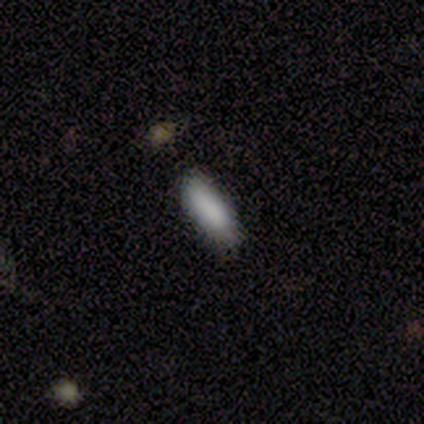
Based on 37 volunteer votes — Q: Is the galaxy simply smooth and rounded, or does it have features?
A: smooth — 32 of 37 (86%).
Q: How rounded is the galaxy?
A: in between — 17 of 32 (53%).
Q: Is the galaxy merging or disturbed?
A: none — 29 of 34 (85%).